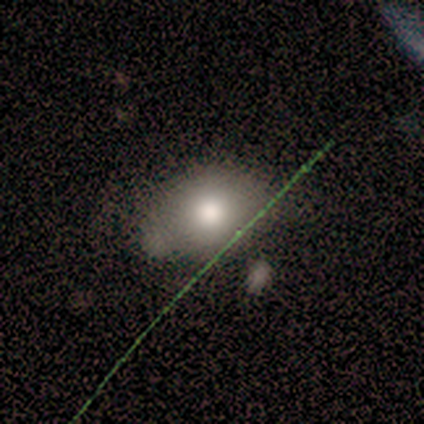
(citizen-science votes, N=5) smooth_or_featured: smooth (p=1.00)
how_rounded: round (p=0.60) [alt: in between p=0.40]
merging: none (p=1.00)